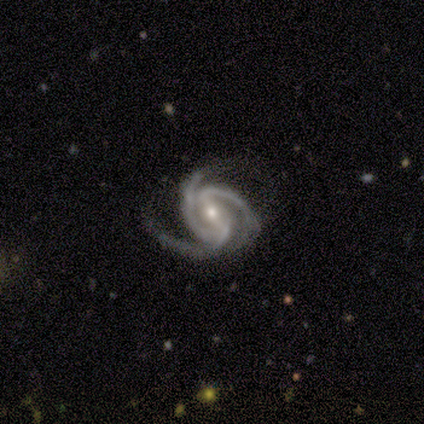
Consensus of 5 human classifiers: smooth-or-featured: featured or disk: 100% | smooth: 0% | star or artifact: 0%
  disk-edge-on: no: 100% | yes: 0%
    bar: weak: 60% | strong: 40% | no: 0%
    has-spiral-arms: yes: 100% | no: 0%
      spiral-winding: tight: 80% | medium: 20% | loose: 0%
      spiral-arm-count: 3: 100% | 1: 0% | 2: 0% | 4: 0% | more than 4: 0% | can't tell: 0%
    bulge-size: moderate: 60% | small: 40% | dominant: 0% | large: 0% | none: 0%
  merging: none: 80% | minor disturbance: 20% | major disturbance: 0% | merger: 0%